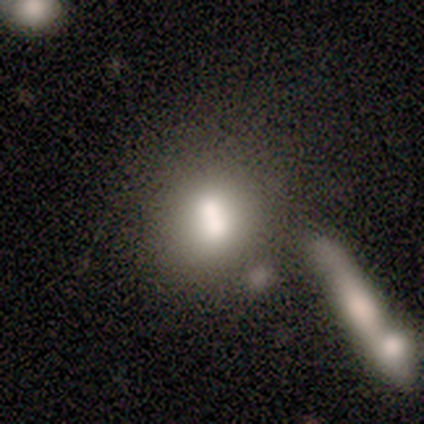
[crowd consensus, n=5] Smooth or featured?
  - smooth: 60% *
  - featured or disk: 20%
  - star or artifact: 20%
How rounded?
  - round: 67% *
  - in between: 33%
  - cigar-shaped: 0%
Merging?
  - merger: 75% *
  - none: 25%
  - minor disturbance: 0%
  - major disturbance: 0%